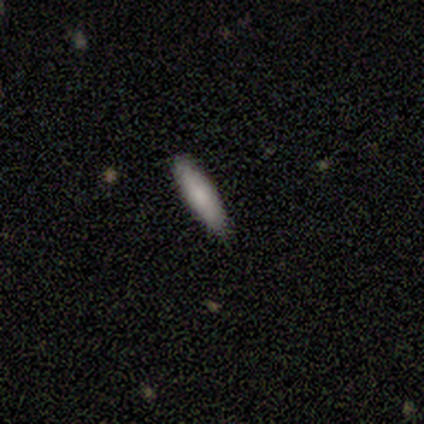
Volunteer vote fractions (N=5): smooth-or-featured: smooth: 80% | featured or disk: 20% | star or artifact: 0%
  how-rounded: cigar-shaped: 100% | round: 0% | in between: 0%
  merging: none: 100% | minor disturbance: 0% | major disturbance: 0% | merger: 0%